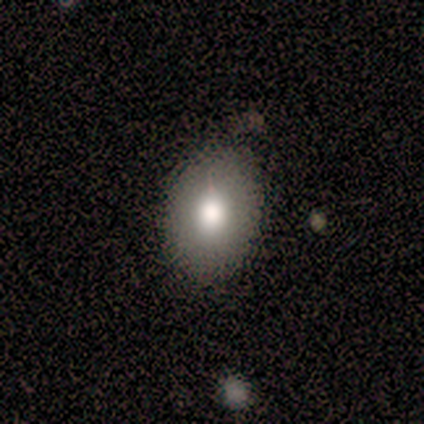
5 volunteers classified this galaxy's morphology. type=smooth (60%); roundness=round (67%); merging=none (100%).